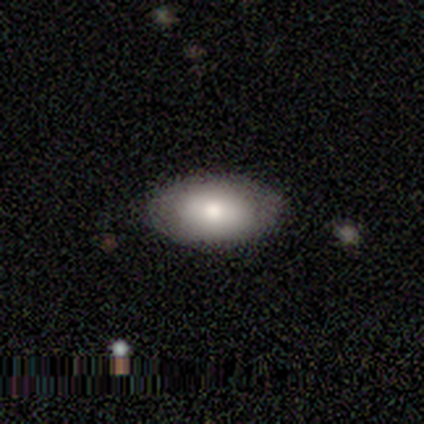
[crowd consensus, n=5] Smooth or featured? 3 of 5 (60%) said smooth. How rounded? 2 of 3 (67%) said in between. Merging? 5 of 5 (100%) said none.